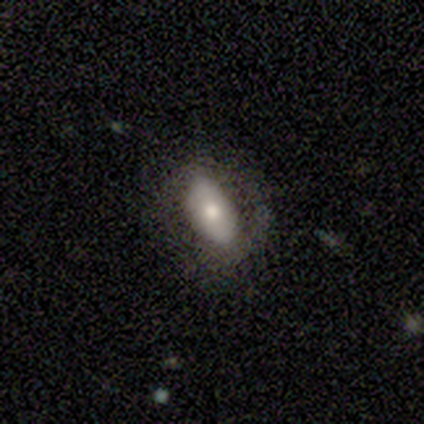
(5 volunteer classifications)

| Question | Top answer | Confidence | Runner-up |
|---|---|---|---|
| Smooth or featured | smooth | 100% | — |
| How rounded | in between | 100% | — |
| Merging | none | 80% | minor disturbance (20%) |